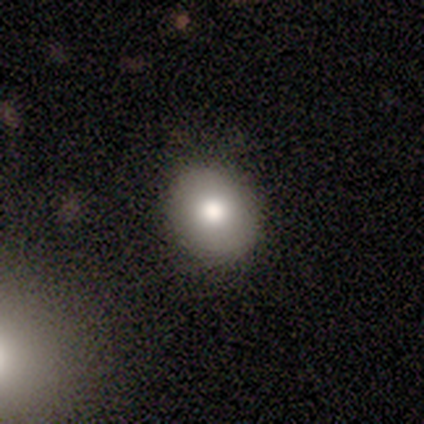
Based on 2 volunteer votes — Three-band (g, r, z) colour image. It shows a smooth galaxy with no disk features (100%) that is round (50%, tied with in between). Merging: none (50%, tied with minor disturbance).